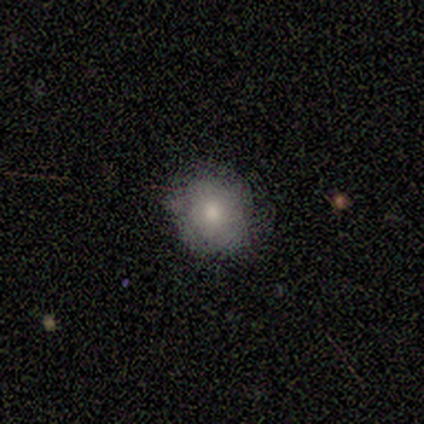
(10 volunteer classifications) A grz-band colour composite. It shows a smooth galaxy with no disk features (100%) that is round (80%). Merging: none (80%).